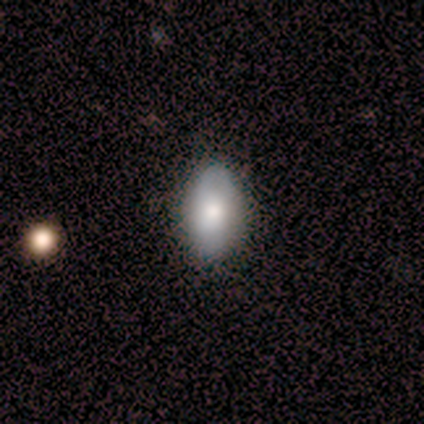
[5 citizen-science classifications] This appears to be a smooth galaxy with no disk features (80%) that is in between round and cigar-shaped (75%). Merging: none (100%).